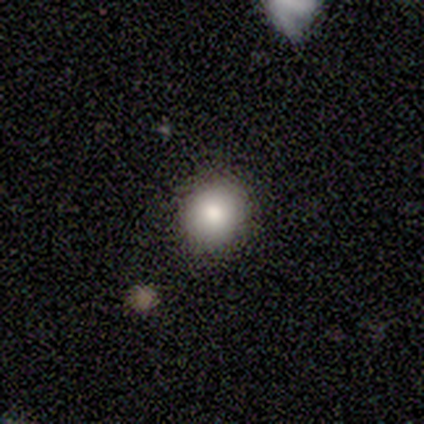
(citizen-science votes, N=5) A smooth galaxy with no disk features (40%, tied with star or artifact) that is round (50%, tied with in between). Merging: none (67%).